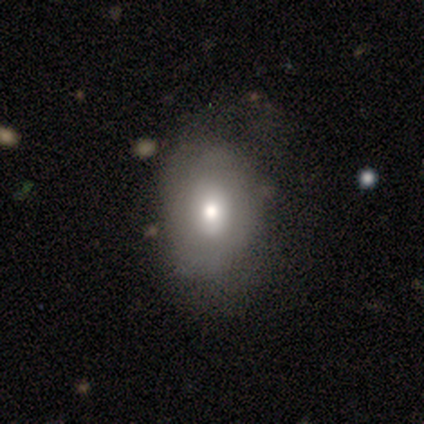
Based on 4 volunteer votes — Overall: smooth (50%; featured or disk 25%). How rounded: in between (100%). Merging: major disturbance (67%; none 33%).